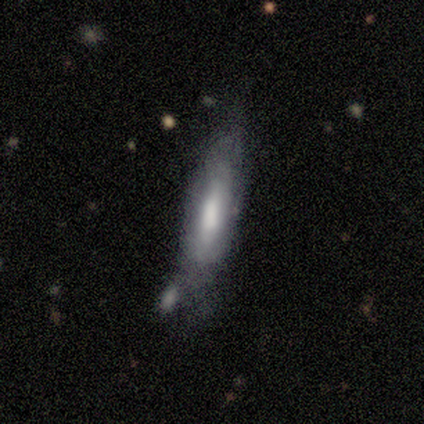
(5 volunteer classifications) Volunteers were most divided on "merging" (2-way tie): none: 40%, minor disturbance: 40%, major disturbance: 20%, merger: 0%. More confident: smooth or featured — smooth (80%); how rounded — cigar-shaped (75%).